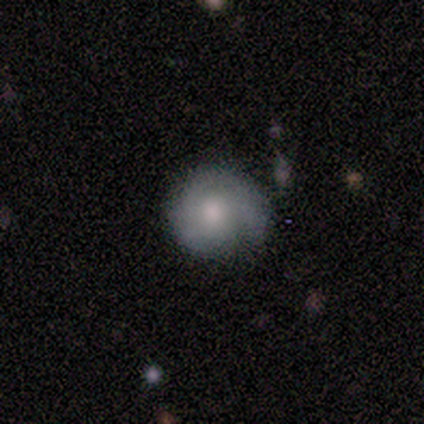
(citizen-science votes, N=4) featured or disk 100%, smooth 0%, star or artifact 0%. Down the decision tree: edge-on disk — no (100%); bar — no (75%); spiral arms — yes (50%, tied with no); spiral arm count — 3 (50%, tied with can't tell); spiral winding — tight (50%, tied with medium); bulge size — moderate (75%); merging — major disturbance (50%).